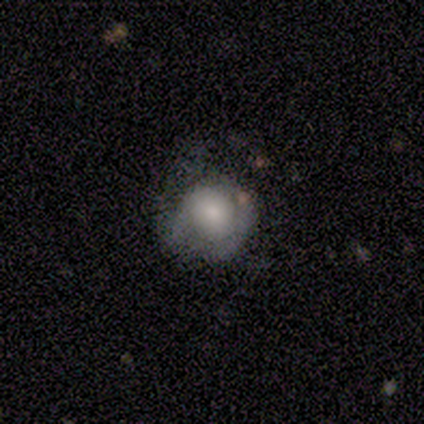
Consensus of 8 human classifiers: smooth_or_featured: smooth (p=0.62) [alt: featured or disk p=0.38]
how_rounded: round (p=0.80) [alt: in between p=0.20]
merging: minor disturbance (p=0.50) [alt: none p=0.25]